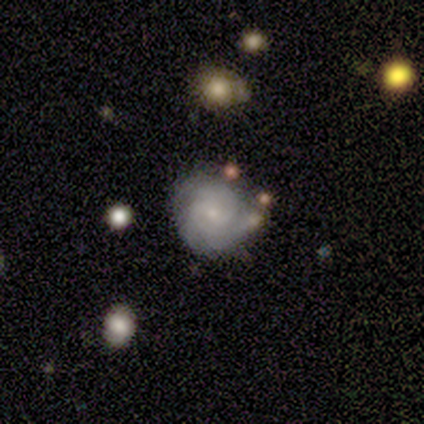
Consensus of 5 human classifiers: Volunteers were most divided on "spiral winding" (2-way tie): tight: 50%, loose: 50%, medium: 0%; "spiral arm count" (2-way tie): 3: 50%, can't tell: 50%, 1: 0%, 2: 0%, 4: 0%, more than 4: 0%. More confident: edge-on disk — no (100%); bar — no (67%); spiral arms — yes (67%); bulge size — small (67%); merging — minor disturbance (67%); smooth or featured — featured or disk (60%).